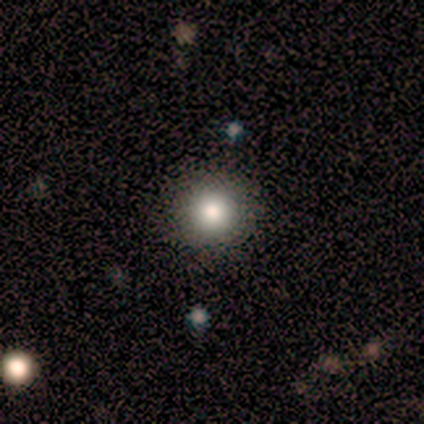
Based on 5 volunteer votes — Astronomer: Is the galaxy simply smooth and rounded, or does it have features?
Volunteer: smooth — 80%.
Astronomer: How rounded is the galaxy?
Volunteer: round — 100%.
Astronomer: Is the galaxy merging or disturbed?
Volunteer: none — 100%.